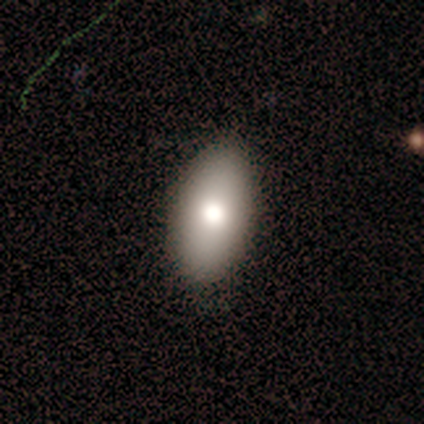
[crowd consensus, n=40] Smooth or featured?
  - smooth: 90% *
  - featured or disk: 5%
  - star or artifact: 5%
How rounded?
  - in between: 97% *
  - round: 3%
  - cigar-shaped: 0%
Merging?
  - none: 87% *
  - minor disturbance: 13%
  - major disturbance: 0%
  - merger: 0%